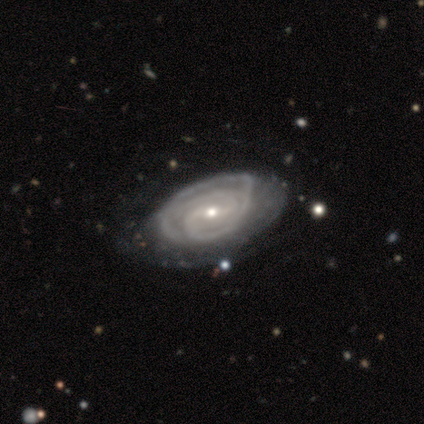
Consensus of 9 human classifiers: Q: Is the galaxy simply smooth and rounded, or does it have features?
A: featured or disk — 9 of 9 (100%).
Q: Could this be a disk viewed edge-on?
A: no — 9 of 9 (100%).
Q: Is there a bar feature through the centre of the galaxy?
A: weak — 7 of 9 (78%).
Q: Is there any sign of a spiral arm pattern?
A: yes — 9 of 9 (100%).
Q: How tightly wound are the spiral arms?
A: tight — 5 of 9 (56%).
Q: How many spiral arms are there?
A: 2 — 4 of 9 (44%).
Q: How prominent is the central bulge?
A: small — 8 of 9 (89%).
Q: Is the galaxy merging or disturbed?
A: none — 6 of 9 (67%).